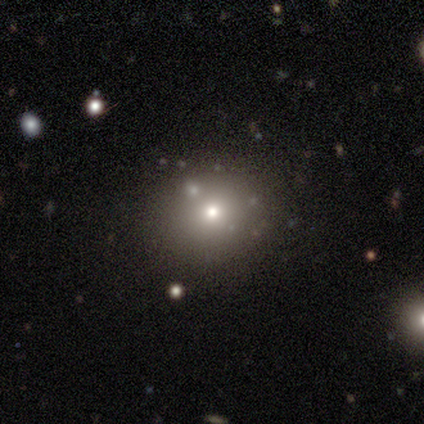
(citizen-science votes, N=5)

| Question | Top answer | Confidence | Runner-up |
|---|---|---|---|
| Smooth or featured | smooth | 60% | featured or disk (20%) |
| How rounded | round | 67% | in between (33%) |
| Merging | none | 100% | — |